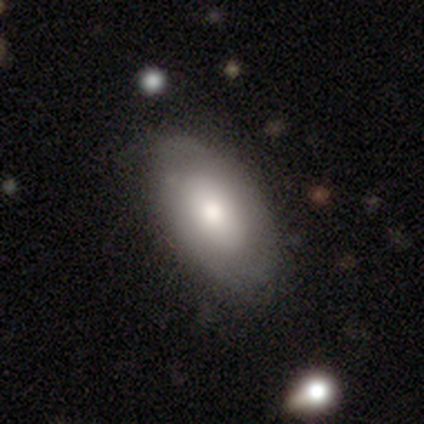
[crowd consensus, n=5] Q: Smooth or featured?
A: smooth (80%); runner-up: featured or disk (20%)
Q: How rounded?
A: in between (100%)
Q: Merging?
A: none (100%)